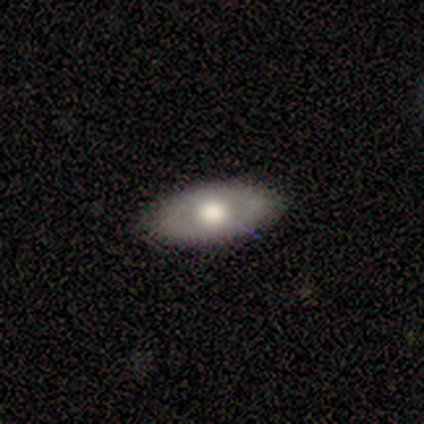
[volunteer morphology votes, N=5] Smooth or featured?
  - smooth: 80% *
  - featured or disk: 20%
  - star or artifact: 0%
How rounded?
  - in between: 100% *
  - round: 0%
  - cigar-shaped: 0%
Merging?
  - none: 100% *
  - minor disturbance: 0%
  - major disturbance: 0%
  - merger: 0%